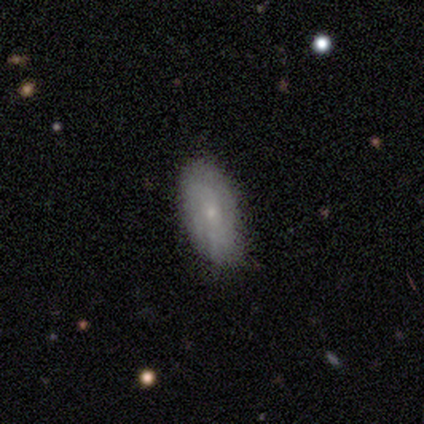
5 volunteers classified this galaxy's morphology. Volunteers were most divided on "smooth or featured": smooth: 60%, featured or disk: 40%, star or artifact: 0%. More confident: how rounded — in between (100%); merging — none (100%).